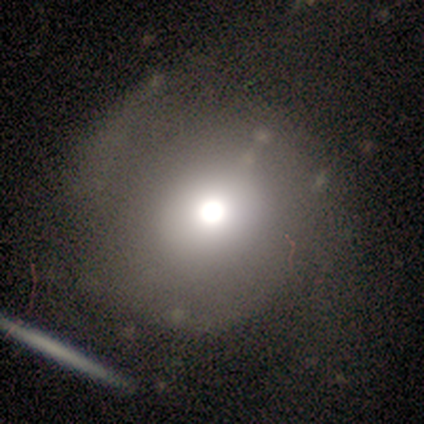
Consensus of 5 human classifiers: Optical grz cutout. It shows a featured or disk galaxy (60%) with no bar (67%), no spiral arms (67%) and a moderate central bulge (67%). Merging: none (50%).